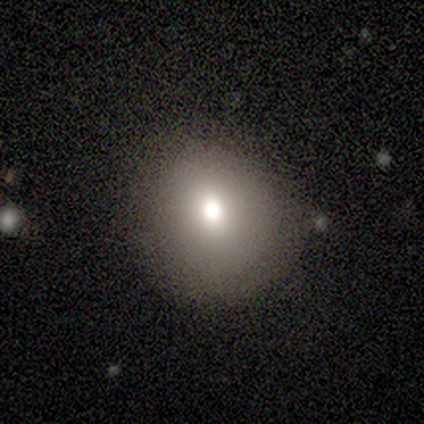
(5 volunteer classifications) smooth_or_featured: smooth (p=1.00)
how_rounded: round (p=1.00)
merging: none (p=1.00)